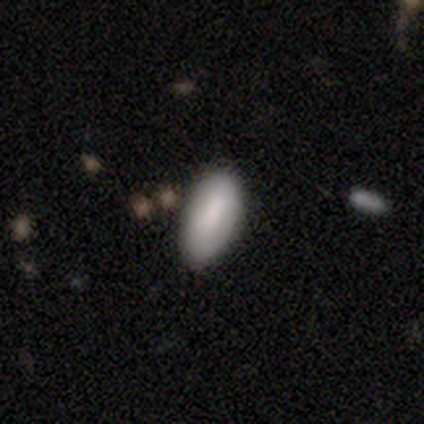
Smooth or featured? 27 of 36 (75%) said smooth. How rounded? 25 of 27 (93%) said in between. Merging? 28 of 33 (85%) said none.